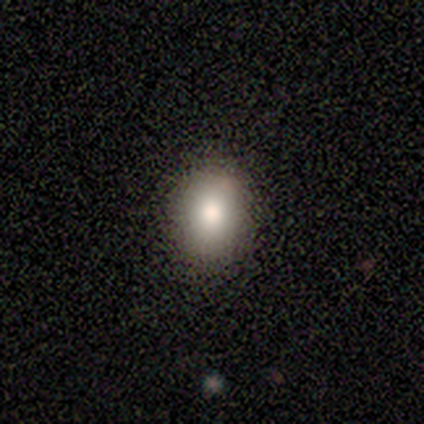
Smooth or featured? smooth (100%)
How rounded? in between (100%)
Merging? none (80%)